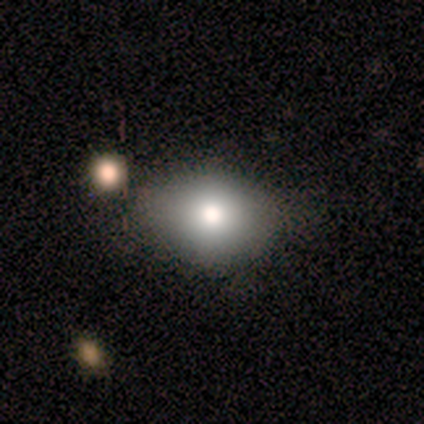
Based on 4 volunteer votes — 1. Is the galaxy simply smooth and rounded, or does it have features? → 75% smooth, 25% featured or disk, 0% star or artifact.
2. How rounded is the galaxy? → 67% round, 33% in between, 0% cigar-shaped.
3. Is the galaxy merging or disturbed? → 100% none, 0% minor disturbance, 0% major disturbance, 0% merger.